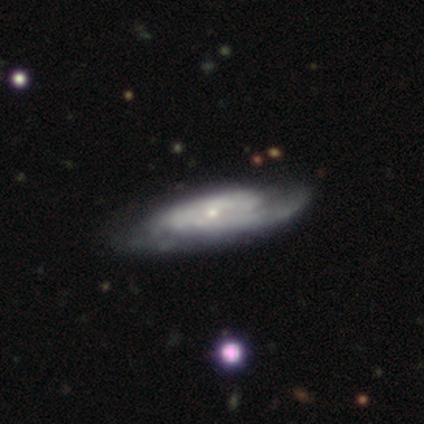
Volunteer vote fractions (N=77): Smooth or featured? 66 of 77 (86%) said featured or disk. Edge-on disk? 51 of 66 (77%) said no. Bar? 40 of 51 (78%) said no. Spiral arms? 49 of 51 (96%) said yes. Spiral winding? 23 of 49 (47%) said medium. Spiral arm count? 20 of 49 (41%) said 2. Bulge size? 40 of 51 (78%) said small. Merging? 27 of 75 (36%) said none.